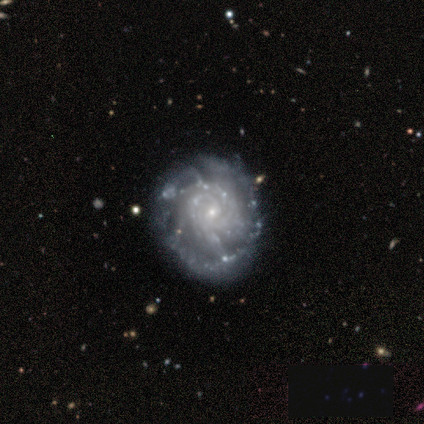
Smooth or featured? featured or disk (91%)
Edge-on disk? no (98%)
Bar? no (73%)
Spiral arms? yes (97%)
Spiral winding? tight (80%)
Spiral arm count? more than 4 (33%)
Bulge size? small (89%)
Merging? none (65%)